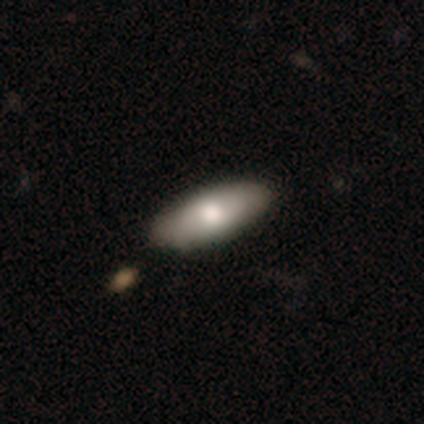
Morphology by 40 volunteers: Volunteers were most divided on "how rounded": in between: 77%, cigar-shaped: 19%, round: 3%. More confident: merging — none (89%); smooth or featured — smooth (78%).